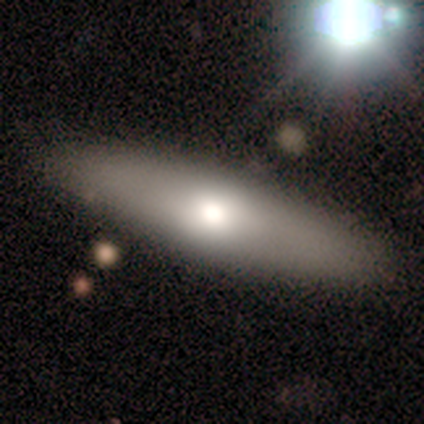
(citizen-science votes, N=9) smooth 67%, featured or disk 33%, star or artifact 0%. Down the decision tree: how rounded — cigar-shaped (67%); merging — none (89%).